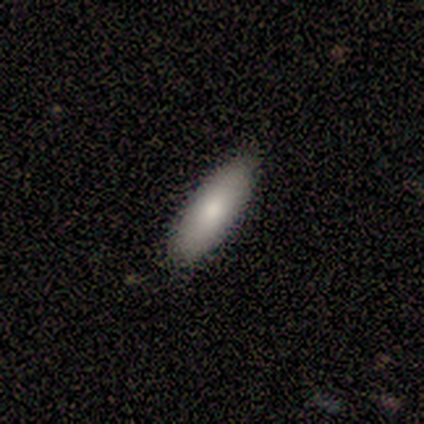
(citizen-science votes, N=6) Volunteers were most divided on "smooth or featured": smooth: 67%, featured or disk: 17%, star or artifact: 17%. More confident: merging — none (100%); how rounded — in between (75%).